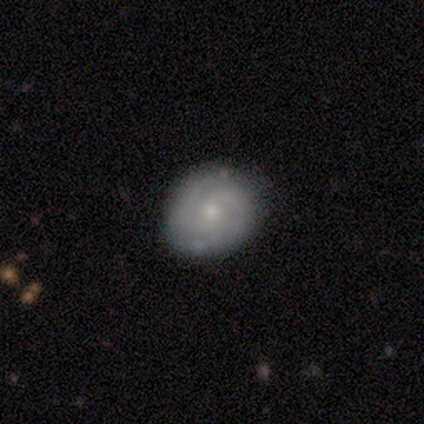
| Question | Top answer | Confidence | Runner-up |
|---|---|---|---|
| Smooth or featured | featured or disk | 72% | smooth (24%) |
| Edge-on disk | no | 97% | yes (3%) |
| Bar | no | 75% | weak (22%) |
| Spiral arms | yes | 82% | no (18%) |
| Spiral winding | tight | 63% | medium (27%) |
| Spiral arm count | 2 | 57% | 3 (22%) |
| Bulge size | small | 63% | moderate (33%) |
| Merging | none | 81% | minor disturbance (17%) |